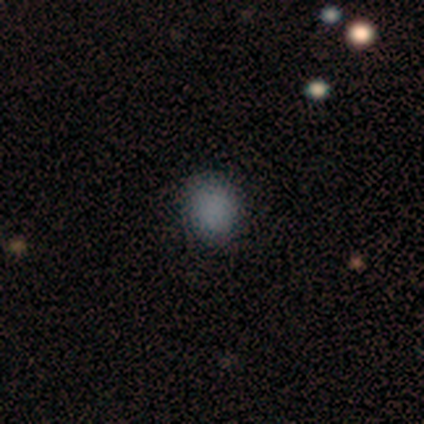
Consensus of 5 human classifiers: A smooth galaxy with no disk features (100%) that is round (100%).

Vote fractions:
- Smooth or featured? smooth: 100% / featured or disk: 0% / star or artifact: 0%
- How rounded? round: 100% / in between: 0% / cigar-shaped: 0%
- Merging? none: 100% / minor disturbance: 0% / major disturbance: 0% / merger: 0%